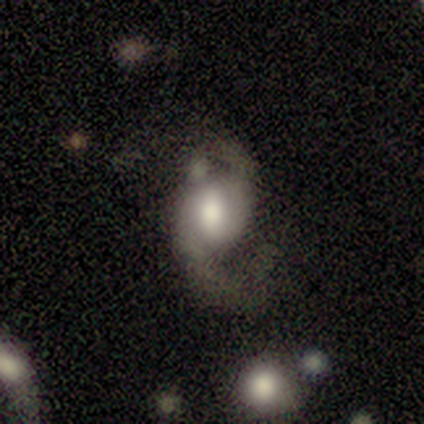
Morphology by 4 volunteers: Smooth or featured? featured or disk (75%)
Edge-on disk? no (100%)
Bar? strong (67%)
Spiral arms? yes (100%)
Spiral winding? loose (67%)
Spiral arm count? 2 (100%)
Bulge size? large (67%)
Merging? none (67%)